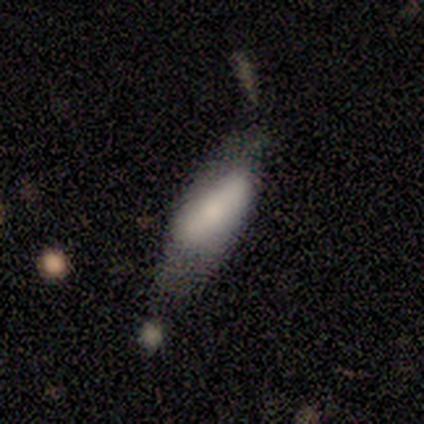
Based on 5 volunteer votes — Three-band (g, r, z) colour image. It shows a smooth galaxy with no disk features (60%) that is in between round and cigar-shaped (67%). Merging: minor disturbance (60%).